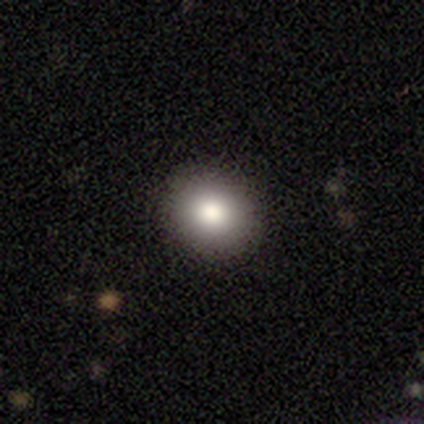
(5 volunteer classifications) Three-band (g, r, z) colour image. It shows a smooth galaxy with no disk features (80%) that is round (75%). Merging: none (80%).